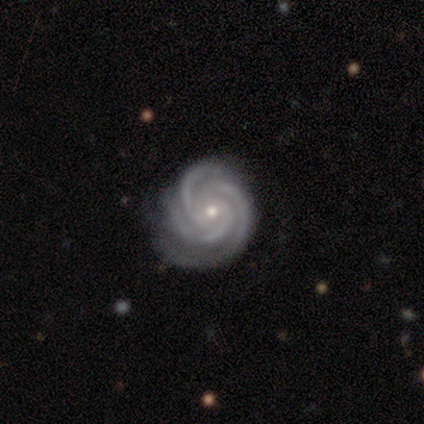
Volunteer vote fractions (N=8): This appears to be a featured or disk galaxy (100%) with no bar (100%), 3 (100%) tight (75%) spiral arms (100%) and a small central bulge (75%). Merging: none (75%).